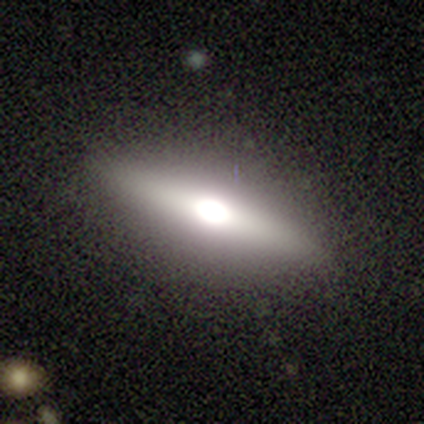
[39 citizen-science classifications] Smooth or featured: featured or disk — 74% (smooth — 21%)
Edge-on disk: yes — 79% (no — 21%)
Edge-on bulge: rounded — 100%
Merging: none — 81% (minor disturbance — 14%)